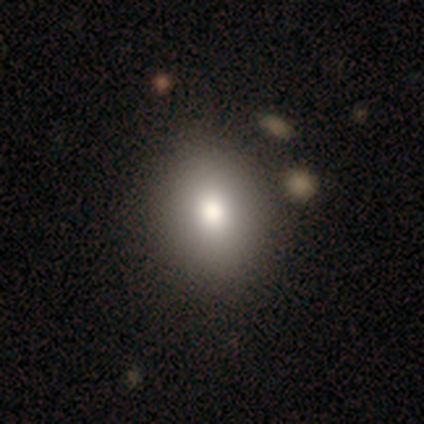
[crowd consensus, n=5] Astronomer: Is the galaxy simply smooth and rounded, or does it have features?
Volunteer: smooth — 60% (runner-up: featured or disk, 40%).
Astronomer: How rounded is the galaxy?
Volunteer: in between — 67%.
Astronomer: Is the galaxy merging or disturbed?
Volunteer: none — 100%.